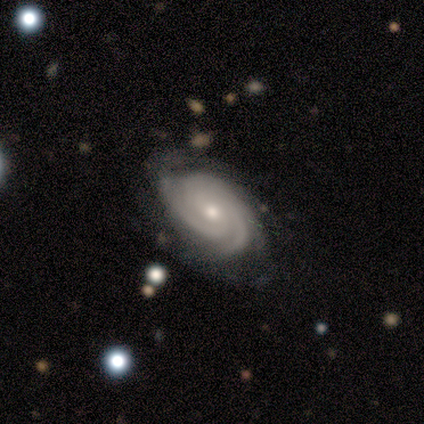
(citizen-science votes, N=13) A featured or disk galaxy (100%) with no bar (92%), 3 (31%) tight (85%) spiral arms (100%) and a small central bulge (54%). Merging: none (85%).